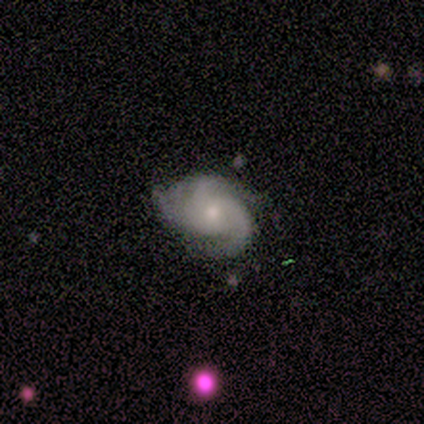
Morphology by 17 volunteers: Smooth or featured? featured or disk (100%)
Edge-on disk? no (100%)
Bar? no (94%)
Spiral arms? yes (100%)
Spiral winding? medium (59%)
Spiral arm count? 3 (71%)
Bulge size? small (53%)
Merging? none (65%)